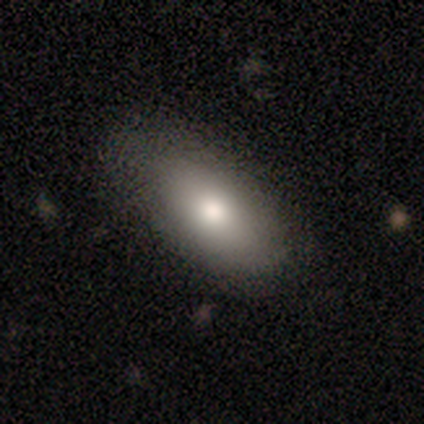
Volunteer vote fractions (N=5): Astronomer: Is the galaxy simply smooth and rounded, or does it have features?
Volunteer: smooth — 100%.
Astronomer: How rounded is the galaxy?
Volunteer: in between — 60% (runner-up: cigar-shaped, 40%).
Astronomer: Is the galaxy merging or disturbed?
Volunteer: none — 60% (runner-up: minor disturbance, 40%).